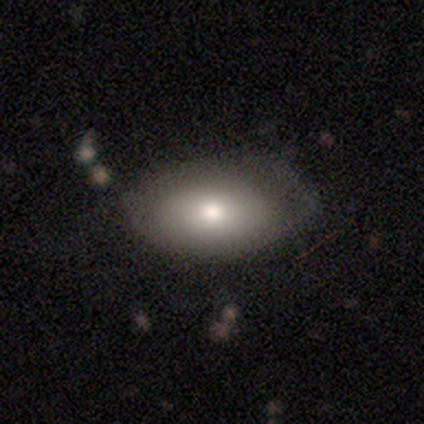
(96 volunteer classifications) Smooth or featured: smooth — 75% (featured or disk — 20%)
How rounded: in between — 92% (round — 7%)
Merging: none — 64% (minor disturbance — 23%)